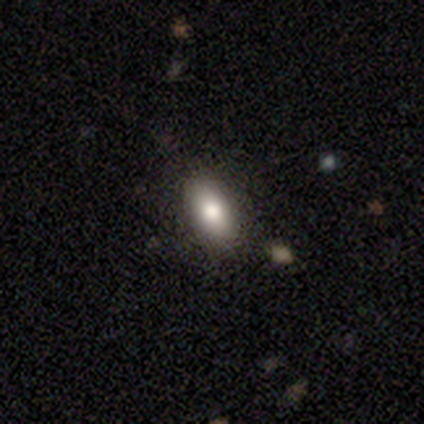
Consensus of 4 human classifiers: Smooth or featured: smooth — 75% (star or artifact — 25%)
How rounded: in between — 67% (cigar-shaped — 33%)
Merging: none — 100%